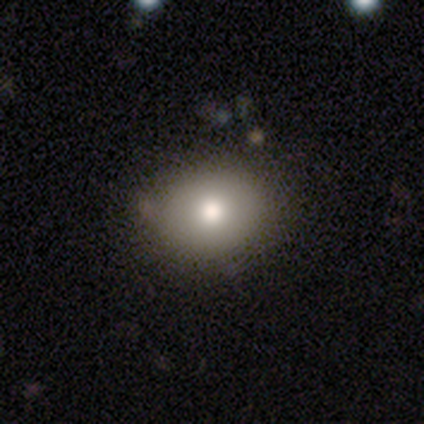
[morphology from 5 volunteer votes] smooth_or_featured: smooth (p=1.00)
how_rounded: round (p=0.60) [alt: in between p=0.40]
merging: none (p=1.00)